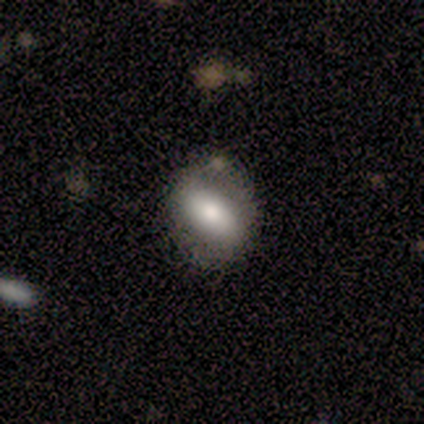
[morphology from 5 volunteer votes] type=smooth (60%); roundness=in between (67%); merging=none (100%).